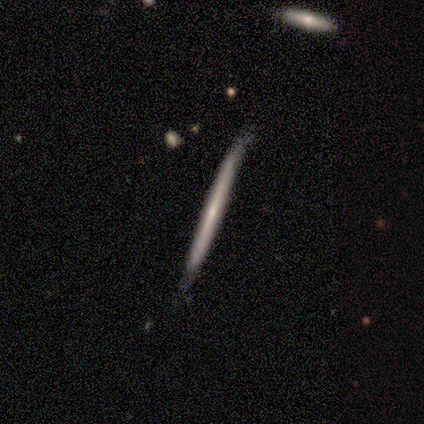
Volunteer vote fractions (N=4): Morphology: type=featured or disk (75%); edge-on=yes (100%); edge-on bulge=none (100%); merging=none (100%).